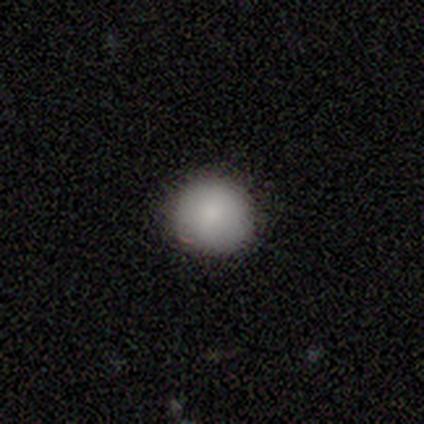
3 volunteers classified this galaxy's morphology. This is clearly a smooth galaxy (100%). How rounded: clearly round (100%). Merging: clearly none (100%).